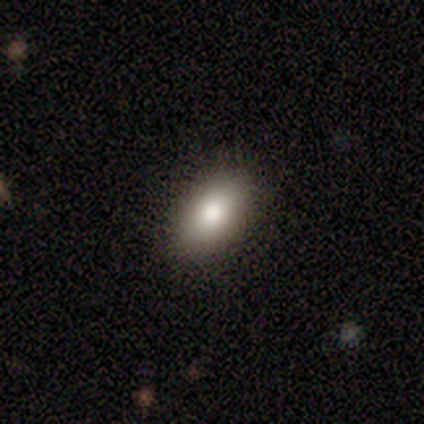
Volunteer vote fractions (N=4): Overall: smooth (100%). How rounded: in between (100%). Merging: none (100%).